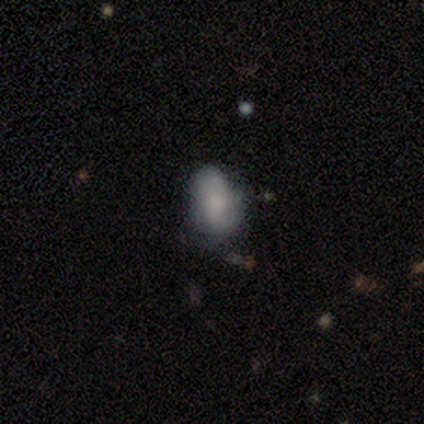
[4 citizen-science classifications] smooth_or_featured: smooth (p=0.75) [alt: featured or disk p=0.25]
how_rounded: cigar-shaped (p=0.67) [alt: in between p=0.33]
merging: none (p=0.50) [alt: minor disturbance p=0.25]